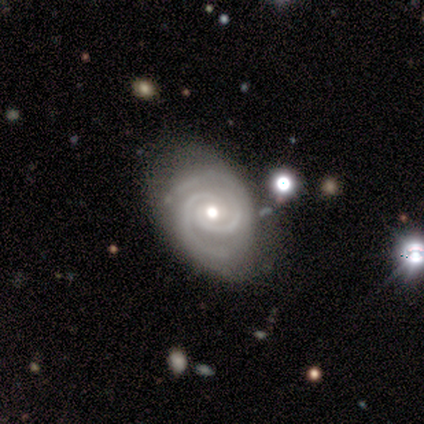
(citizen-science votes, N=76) Smooth or featured? 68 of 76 (89%) said featured or disk. Edge-on disk? 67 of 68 (99%) said no. Bar? 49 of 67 (73%) said no. Spiral arms? 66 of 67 (99%) said yes. Spiral winding? 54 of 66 (82%) said tight. Spiral arm count? 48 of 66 (73%) said 2. Bulge size? 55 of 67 (82%) said moderate. Merging? 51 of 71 (72%) said none.